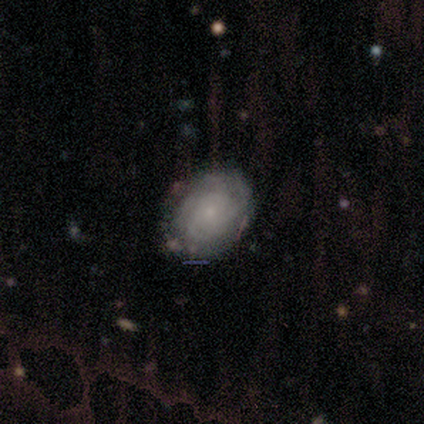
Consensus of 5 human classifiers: Smooth or featured?
  - featured or disk: 80% *
  - smooth: 20%
  - star or artifact: 0%
Edge-on disk?
  - no: 100% *
  - yes: 0%
Bar?
  - no: 75% *
  - strong: 25%
  - weak: 0%
Spiral arms?
  - yes: 75% *
  - no: 25%
Spiral winding?
  - tight: 67% *
  - loose: 33%
  - medium: 0%
Spiral arm count?
  - can't tell: 67% *
  - more than 4: 33%
  - 1: 0%
  - 2: 0%
  - 3: 0%
  - 4: 0%
Bulge size?
  - small: 75% *
  - moderate: 25%
  - dominant: 0%
  - large: 0%
  - none: 0%
Merging?
  - none: 80% *
  - minor disturbance: 20%
  - major disturbance: 0%
  - merger: 0%